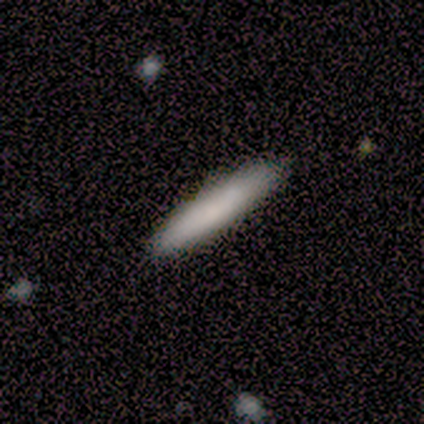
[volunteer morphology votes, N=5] Overall: smooth (80%). How rounded: cigar-shaped (100%). Merging: none (100%).